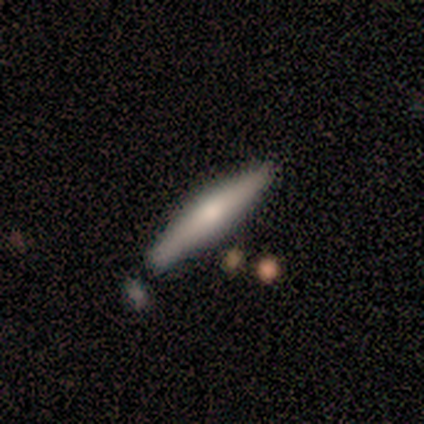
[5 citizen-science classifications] A smooth galaxy with no disk features (60%) that is cigar-shaped (100%).

Vote fractions:
- Smooth or featured? smooth: 60% / featured or disk: 40% / star or artifact: 0%
- How rounded? cigar-shaped: 100% / round: 0% / in between: 0%
- Merging? none: 80% / minor disturbance: 20% / major disturbance: 0% / merger: 0%